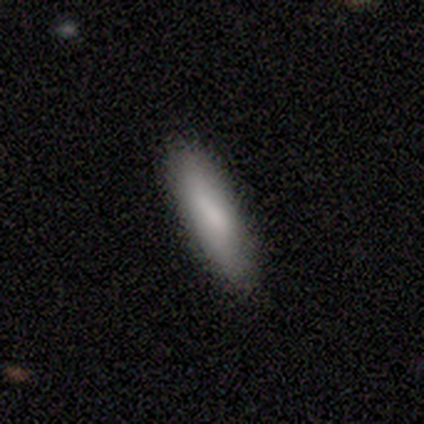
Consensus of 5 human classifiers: Smooth or featured?
  - smooth: 100% *
  - featured or disk: 0%
  - star or artifact: 0%
How rounded?
  - cigar-shaped: 60% *
  - round: 20%
  - in between: 20%
Merging?
  - none: 100% *
  - minor disturbance: 0%
  - major disturbance: 0%
  - merger: 0%